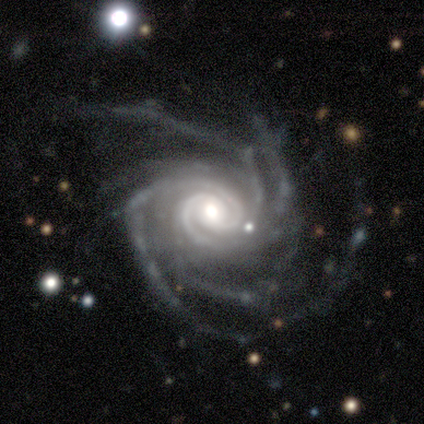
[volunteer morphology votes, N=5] smooth-or-featured: featured or disk: 100% | smooth: 0% | star or artifact: 0%
  disk-edge-on: no: 100% | yes: 0%
    bar: no: 80% | weak: 20% | strong: 0%
    has-spiral-arms: yes: 100% | no: 0%
      spiral-winding: tight: 80% | medium: 20% | loose: 0%
      spiral-arm-count: 4: 40% (tied) | more than 4: 40% (tied) | 2: 20% | 1: 0% | 3: 0% | can't tell: 0%
    bulge-size: moderate: 60% | large: 20% | small: 20% | dominant: 0% | none: 0%
  merging: none: 60% | minor disturbance: 40% | major disturbance: 0% | merger: 0%